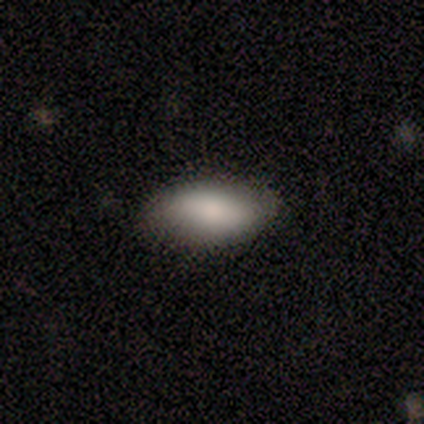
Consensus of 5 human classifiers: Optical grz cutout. It shows a smooth galaxy with no disk features (80%) that is in between round and cigar-shaped (100%). Merging: none (75%).